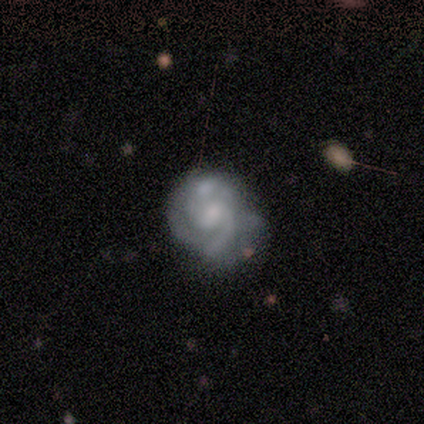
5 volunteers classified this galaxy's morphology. A featured or disk galaxy (100%) with a weak bar (80%), 2 (80%) medium (80%) spiral arms (100%) and a small central bulge (60%). Merging: none (60%).